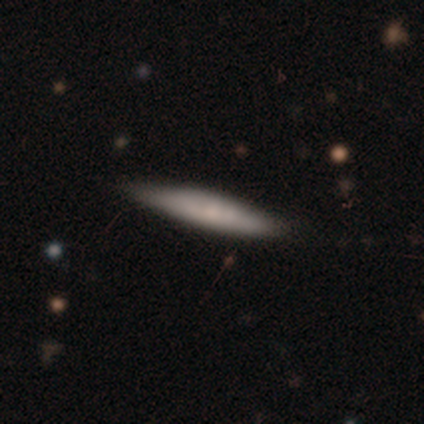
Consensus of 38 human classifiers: smooth 71%, featured or disk 21%, star or artifact 8%. Down the decision tree: how rounded — cigar-shaped (96%); merging — none (77%).